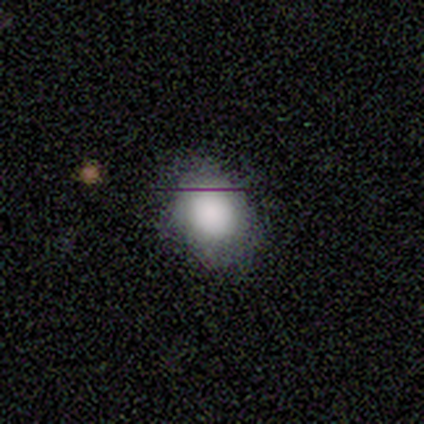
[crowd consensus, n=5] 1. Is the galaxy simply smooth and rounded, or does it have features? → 100% smooth, 0% featured or disk, 0% star or artifact.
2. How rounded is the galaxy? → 80% in between, 20% round, 0% cigar-shaped.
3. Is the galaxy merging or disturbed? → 100% none, 0% minor disturbance, 0% major disturbance, 0% merger.